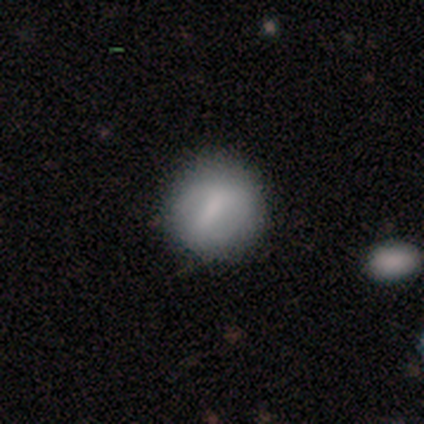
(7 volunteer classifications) Overall: smooth (57%; featured or disk 29%). How rounded: round (100%). Merging: none (67%; minor disturbance 33%).